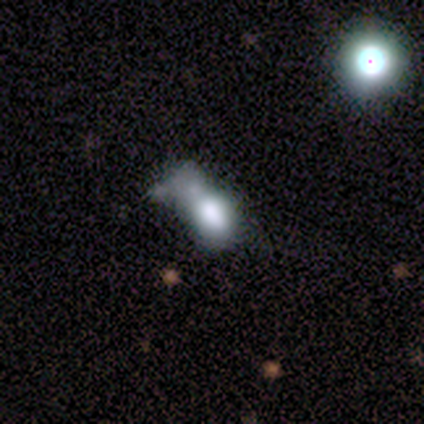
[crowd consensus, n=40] smooth_or_featured: smooth (p=0.60) [alt: featured or disk p=0.35]
how_rounded: in between (p=0.92) [alt: round p=0.08]
merging: merger (p=0.47) [alt: major disturbance p=0.26]